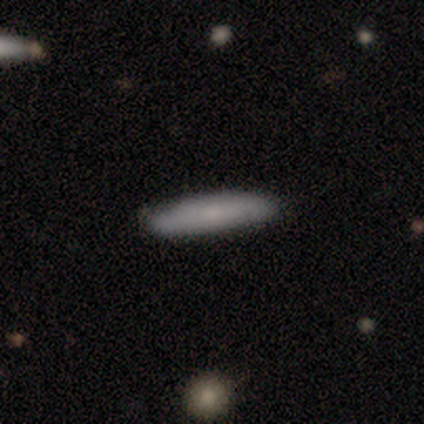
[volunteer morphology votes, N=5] Smooth or featured?
  - smooth: 100% *
  - featured or disk: 0%
  - star or artifact: 0%
How rounded?
  - cigar-shaped: 100% *
  - round: 0%
  - in between: 0%
Merging?
  - none: 100% *
  - minor disturbance: 0%
  - major disturbance: 0%
  - merger: 0%